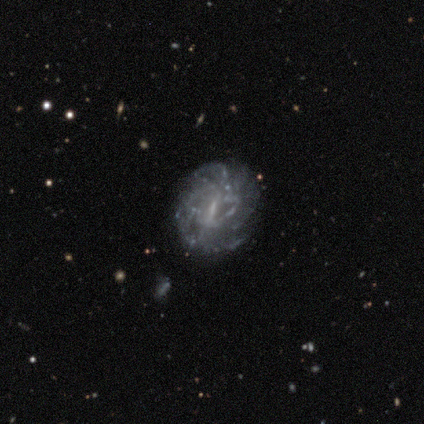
Volunteers were most divided on "spiral winding" (3-way tie): tight: 33%, medium: 33%, loose: 33%; "merging" (2-way tie): none: 50%, minor disturbance: 50%, major disturbance: 0%, merger: 0%. More confident: smooth or featured — featured or disk (100%); edge-on disk — no (100%); bar — weak (100%); spiral arms — yes (75%); spiral arm count — can't tell (67%); bulge size — none (50%).